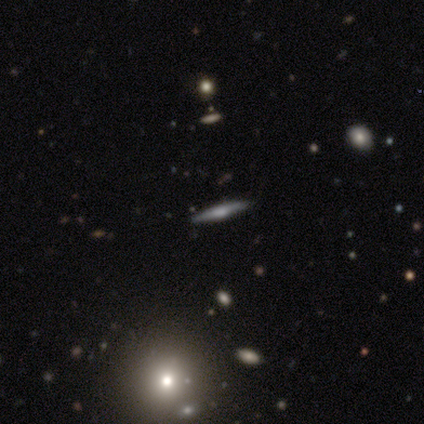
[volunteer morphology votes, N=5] A featured or disk galaxy (60%) viewed edge-on (100%) with a rounded central bulge (100%).

Vote fractions:
- Smooth or featured? featured or disk: 60% / smooth: 20% / star or artifact: 20%
- Edge-on disk? yes: 100% / no: 0%
- Edge-on bulge? rounded: 100% / boxy: 0% / none: 0%
- Merging? none: 100% / minor disturbance: 0% / major disturbance: 0% / merger: 0%